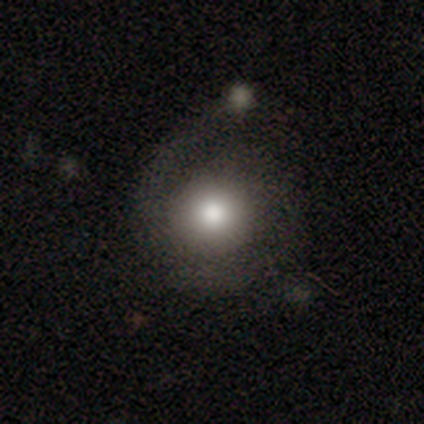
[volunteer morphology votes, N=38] Q: Smooth or featured?
A: smooth (66%); runner-up: featured or disk (26%)
Q: How rounded?
A: round (88%); runner-up: in between (12%)
Q: Merging?
A: minor disturbance (31%); tied with: major disturbance (31%)